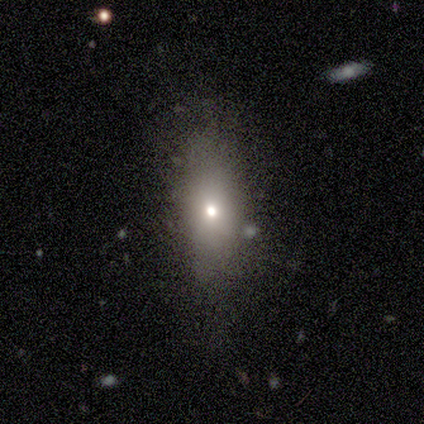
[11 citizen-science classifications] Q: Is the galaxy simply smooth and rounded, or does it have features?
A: smooth — 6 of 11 (55%).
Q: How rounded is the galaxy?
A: in between — 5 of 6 (83%).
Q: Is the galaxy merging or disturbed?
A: none — 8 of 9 (89%).